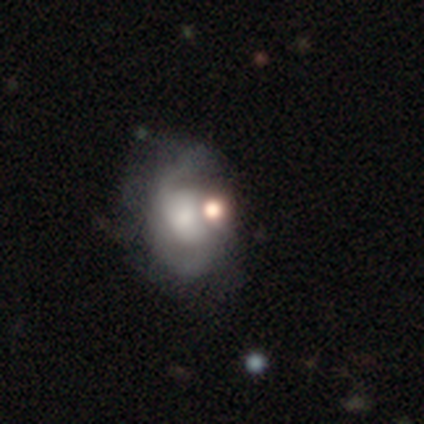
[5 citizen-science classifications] This is marginally a featured or disk galaxy (40%, tied with star or artifact). It is clearly not viewed edge-on (100%). Bar: possibly weak (50%, tied with no). Spiral arm pattern: possibly yes (50%, tied with no). Spiral arm count: clearly 2 (100%). Spiral winding: clearly loose (100%). Central bulge: possibly moderate (50%, tied with none). Merging: marginally none (33%, tied with minor disturbance and merger).